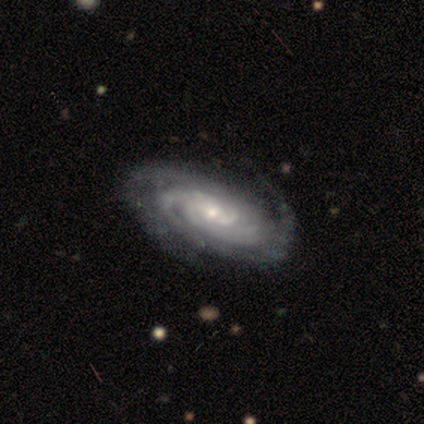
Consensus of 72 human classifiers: A featured or disk galaxy (89%) with no bar (63%), 2 (28%) tight (78%) spiral arms (97%) and a small central bulge (53%).

Vote fractions:
- Smooth or featured? featured or disk: 89% / smooth: 8% / star or artifact: 3%
- Edge-on disk? no: 97% / yes: 3%
- Bar? no: 63% / weak: 31% / strong: 6%
- Spiral arms? yes: 97% / no: 3%
- Spiral winding? tight: 78% / medium: 20% / loose: 2%
- Spiral arm count? 2: 28% / can't tell: 27% / 3: 23% / 4: 12% / more than 4: 10% / 1: 0%
- Bulge size? small: 53% / moderate: 44% / none: 3% / dominant: 0% / large: 0%
- Merging? none: 77% / minor disturbance: 20% / major disturbance: 1% / merger: 1%